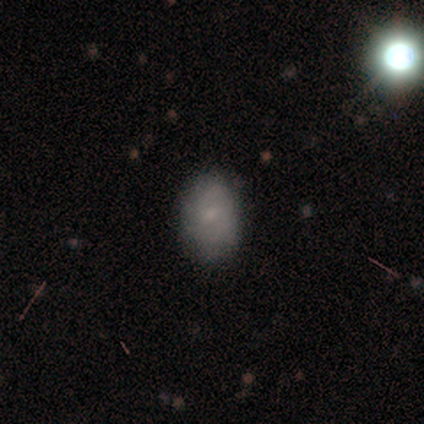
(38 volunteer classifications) Overall: smooth (71%). How rounded: in between (78%). Merging: none (89%).